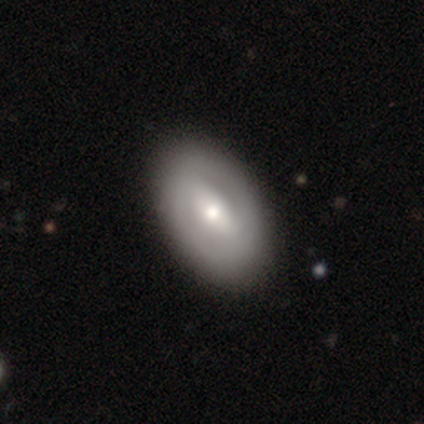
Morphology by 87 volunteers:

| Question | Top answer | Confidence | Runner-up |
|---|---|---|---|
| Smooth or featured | featured or disk | 62% | smooth (34%) |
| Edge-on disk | no | 91% | yes (9%) |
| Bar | strong | 43% | weak (41%) |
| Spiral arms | no | 59% | yes (41%) |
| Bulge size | moderate | 55% | small (37%) |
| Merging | none | 88% | minor disturbance (7%) |